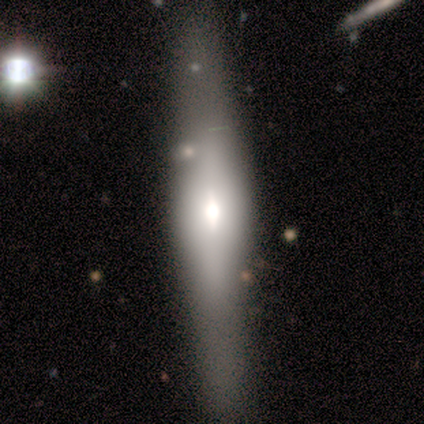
smooth-or-featured: featured or disk: 75% | smooth: 25% | star or artifact: 0%
  disk-edge-on: yes: 67% | no: 33%
    edge-on-bulge: rounded: 100% | boxy: 0% | none: 0%
  merging: none: 50% (tied) | minor disturbance: 50% (tied) | major disturbance: 0% | merger: 0%